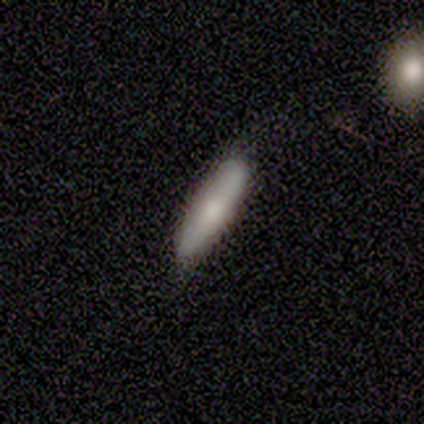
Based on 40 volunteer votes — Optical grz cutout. It shows a smooth galaxy with no disk features (70%) that is cigar-shaped (54%). Merging: none (66%).